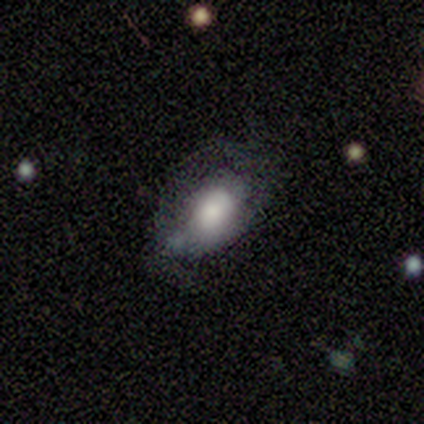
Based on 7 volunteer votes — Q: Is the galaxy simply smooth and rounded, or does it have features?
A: smooth — 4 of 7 (57%).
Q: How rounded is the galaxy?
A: in between — 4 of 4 (100%).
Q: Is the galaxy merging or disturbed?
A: minor disturbance — 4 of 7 (57%).